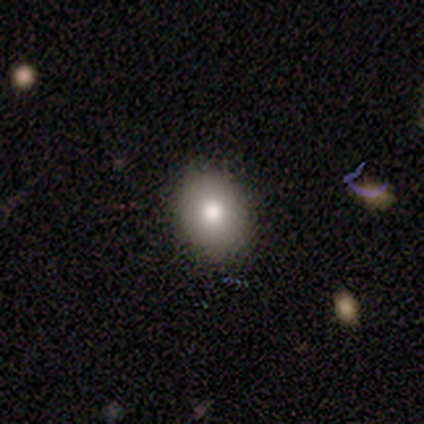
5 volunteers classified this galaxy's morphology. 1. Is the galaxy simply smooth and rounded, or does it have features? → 80% smooth, 20% star or artifact, 0% featured or disk.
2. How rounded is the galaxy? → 75% in between, 25% round, 0% cigar-shaped.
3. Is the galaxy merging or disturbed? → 75% none, 25% minor disturbance, 0% major disturbance, 0% merger.